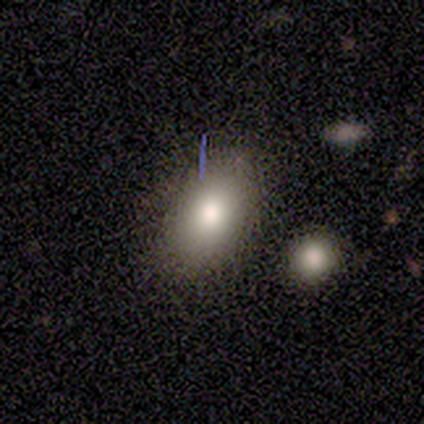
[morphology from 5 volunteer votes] This appears to be a smooth galaxy with no disk features (100%) that is in between round and cigar-shaped (100%). Merging: none (60%).